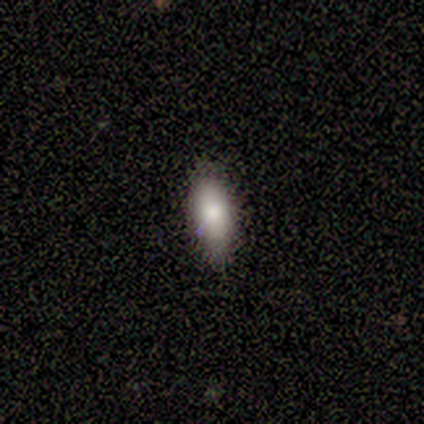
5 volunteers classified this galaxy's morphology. smooth 100%, featured or disk 0%, star or artifact 0%. Down the decision tree: how rounded — in between (100%); merging — none (80%).